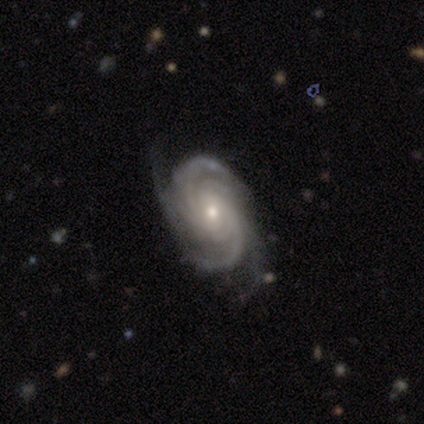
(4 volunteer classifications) Morphology: type=featured or disk (100%); edge-on=no (100%); bar=no (75%); spiral arms=yes (100%); winding=medium (75%); arm count=3 (50%); bulge=small (75%); merging=none (100%).